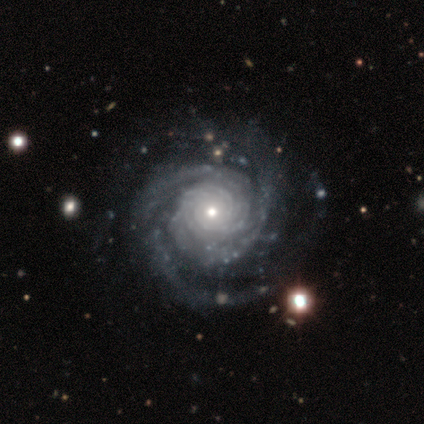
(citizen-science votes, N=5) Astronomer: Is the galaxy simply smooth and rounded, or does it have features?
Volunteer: featured or disk — 100%.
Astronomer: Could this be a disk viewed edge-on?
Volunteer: no — 80%.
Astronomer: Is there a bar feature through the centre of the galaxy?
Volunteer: no — 75%.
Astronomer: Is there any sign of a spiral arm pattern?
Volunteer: yes — 100%.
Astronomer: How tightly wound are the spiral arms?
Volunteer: tight — 100%.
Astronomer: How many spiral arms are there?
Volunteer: can't tell — 50%.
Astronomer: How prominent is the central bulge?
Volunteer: small — 75%.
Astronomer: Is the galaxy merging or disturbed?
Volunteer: none — 100%.